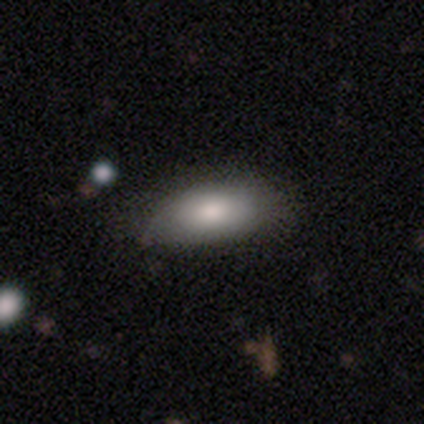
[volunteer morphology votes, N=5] smooth_or_featured: smooth (p=0.40) [tied with: star or artifact p=0.40]
how_rounded: in between (p=1.00)
merging: none (p=0.67) [alt: minor disturbance p=0.33]